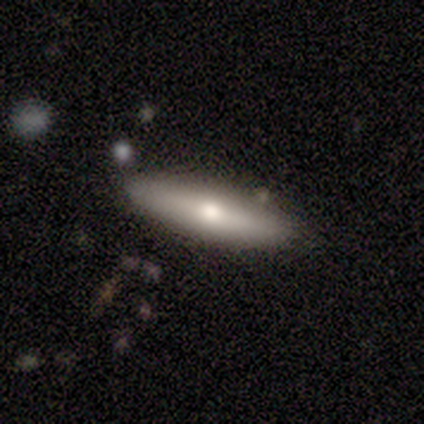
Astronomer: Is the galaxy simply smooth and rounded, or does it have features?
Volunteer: featured or disk — 80%.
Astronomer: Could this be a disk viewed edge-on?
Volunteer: yes — 100%.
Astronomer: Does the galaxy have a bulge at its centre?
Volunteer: rounded — 75%.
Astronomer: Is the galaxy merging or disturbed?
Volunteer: none — 80%.